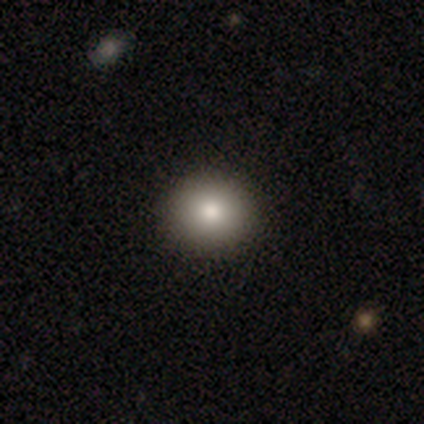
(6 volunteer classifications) This appears to be a smooth galaxy with no disk features (100%) that is round (83%). Merging: none (100%).